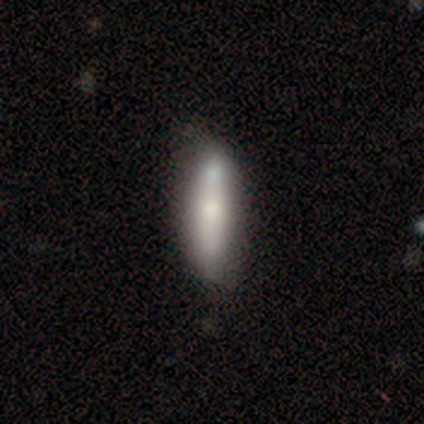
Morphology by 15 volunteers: A smooth galaxy with no disk features (80%) that is cigar-shaped (67%).

Vote fractions:
- Smooth or featured? smooth: 80% / featured or disk: 20% / star or artifact: 0%
- How rounded? cigar-shaped: 67% / in between: 33% / round: 0%
- Merging? none: 60% / minor disturbance: 27% / major disturbance: 7% / merger: 7%